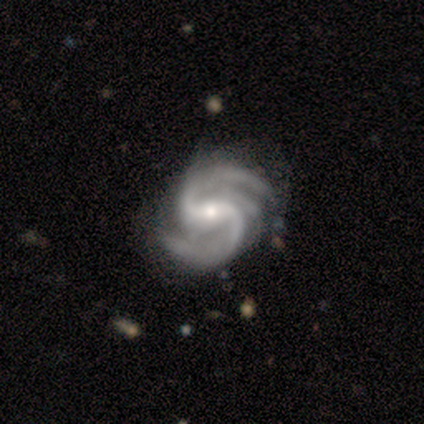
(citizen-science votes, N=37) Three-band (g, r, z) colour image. It shows a featured or disk galaxy (89%) with a strong bar (58%), 2 (70%) medium (63%) spiral arms (97%) and a small central bulge (55%). Merging: none (68%).